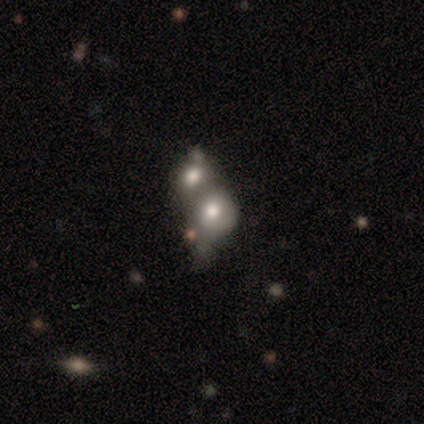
Morphology: type=featured or disk (60%); edge-on=no (100%); bar=no (100%); spiral arms=no (100%); bulge=large (33%, tied with moderate and none); merging=merger (75%).